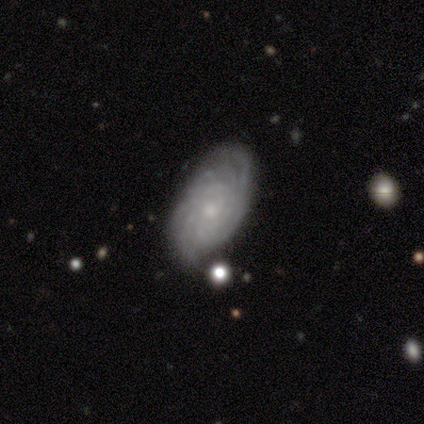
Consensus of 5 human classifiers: Smooth or featured?
  - featured or disk: 100% *
  - smooth: 0%
  - star or artifact: 0%
Edge-on disk?
  - no: 100% *
  - yes: 0%
Bar?
  - no: 100% *
  - strong: 0%
  - weak: 0%
Spiral arms?
  - yes: 100% *
  - no: 0%
Spiral winding?
  - tight: 60% *
  - medium: 40%
  - loose: 0%
Spiral arm count?
  - can't tell: 40% *
  - 2: 20%
  - 4: 20%
  - more than 4: 20%
  - 1: 0%
  - 3: 0%
Bulge size?
  - small: 80% *
  - dominant: 20%
  - large: 0%
  - moderate: 0%
  - none: 0%
Merging?
  - none: 60% *
  - minor disturbance: 40%
  - major disturbance: 0%
  - merger: 0%